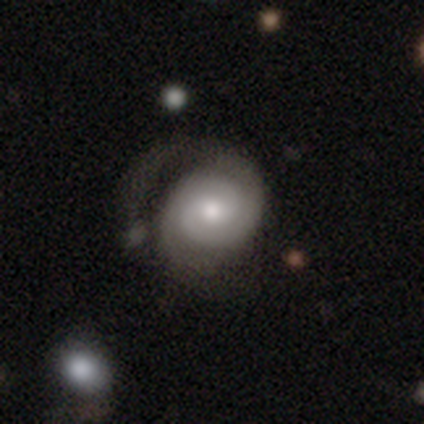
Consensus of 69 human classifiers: This is likely a featured or disk galaxy (72%). It is clearly not viewed edge-on (96%). Bar: possibly no (56%). Spiral arm pattern: clearly yes (96%). Spiral arm count: clearly 2 (89%). Spiral winding: likely tight (61%). Central bulge: likely moderate (73%). Merging: possibly none (45%).